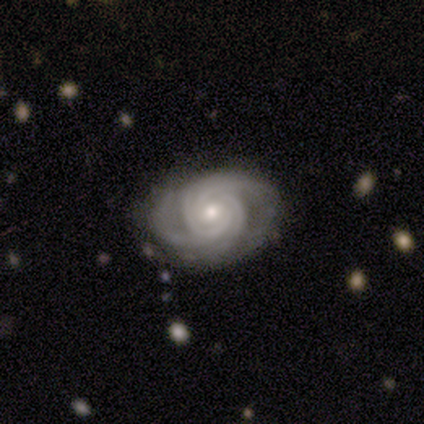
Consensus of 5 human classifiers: Q: Smooth or featured?
A: featured or disk (100%)
Q: Edge-on disk?
A: no (100%)
Q: Bar?
A: no (60%); runner-up: strong (20%)
Q: Spiral arms?
A: yes (100%)
Q: Spiral winding?
A: tight (60%); runner-up: medium (40%)
Q: Spiral arm count?
A: 3 (40%); tied with: 4 (40%)
Q: Bulge size?
A: moderate (60%); runner-up: small (40%)
Q: Merging?
A: none (80%); runner-up: major disturbance (20%)